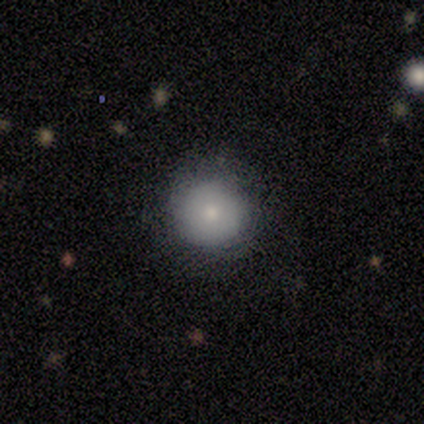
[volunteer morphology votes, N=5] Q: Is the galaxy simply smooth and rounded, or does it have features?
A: smooth — 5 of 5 (100%).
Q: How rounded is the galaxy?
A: round — 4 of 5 (80%).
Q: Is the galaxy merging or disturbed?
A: none — 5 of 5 (100%).